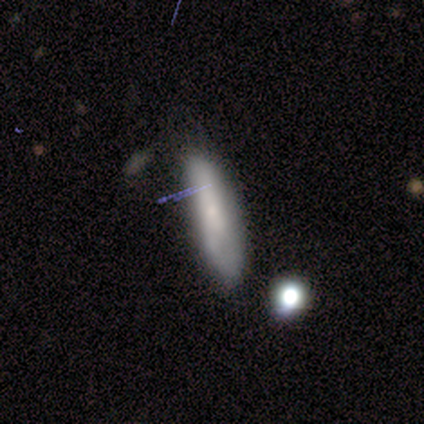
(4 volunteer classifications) smooth 75%, featured or disk 25%, star or artifact 0%. Down the decision tree: how rounded — cigar-shaped (67%); merging — none (100%).